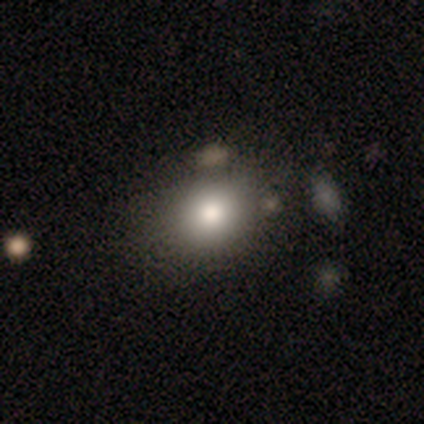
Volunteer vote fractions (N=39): This appears to be a smooth galaxy with no disk features (82%) that is round (62%). Merging: none (50%).